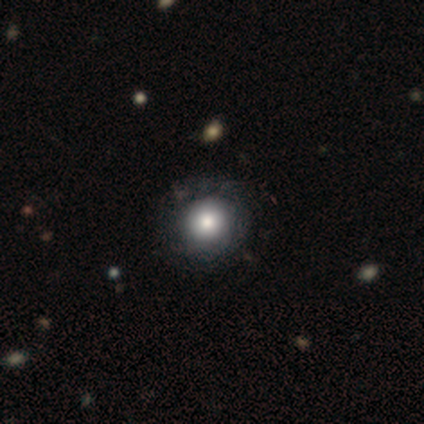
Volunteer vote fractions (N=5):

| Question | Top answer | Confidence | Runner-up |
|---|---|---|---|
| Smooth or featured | smooth | 60% | featured or disk (20%) |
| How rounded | round | 100% | — |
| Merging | none | 75% | minor disturbance (25%) |